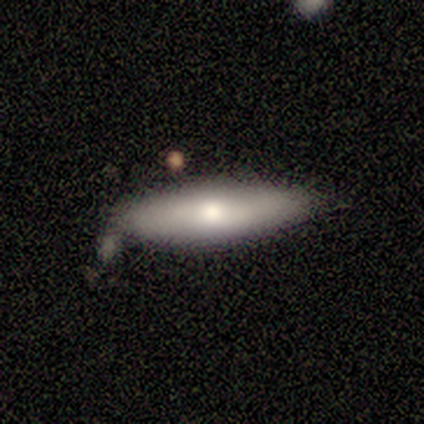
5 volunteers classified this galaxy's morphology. A featured or disk galaxy (60%) viewed edge-on (67%) with a rounded central bulge (100%).

Vote fractions:
- Smooth or featured? featured or disk: 60% / smooth: 40% / star or artifact: 0%
- Edge-on disk? yes: 67% / no: 33%
- Edge-on bulge? rounded: 100% / boxy: 0% / none: 0%
- Merging? minor disturbance: 60% / none: 40% / major disturbance: 0% / merger: 0%